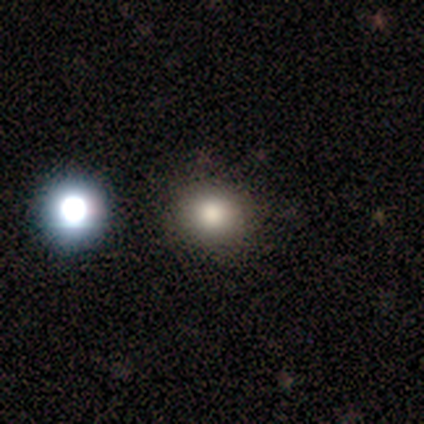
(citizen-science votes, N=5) smooth 80%, star or artifact 20%, featured or disk 0%. Down the decision tree: how rounded — round (100%); merging — none (100%).